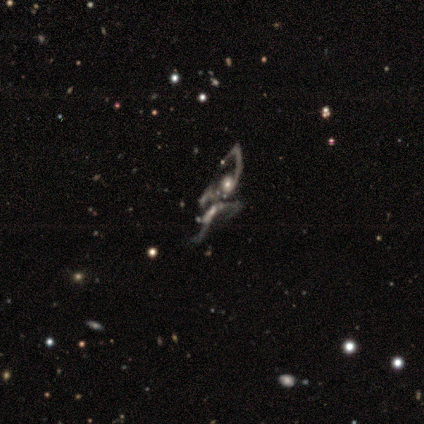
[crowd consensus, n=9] featured or disk 100%, smooth 0%, star or artifact 0%. Down the decision tree: edge-on disk — no (100%); bar — strong (33%, tied with weak and no); spiral arms — yes (89%); spiral arm count — can't tell (50%); spiral winding — loose (100%); bulge size — small (67%); merging — merger (78%).